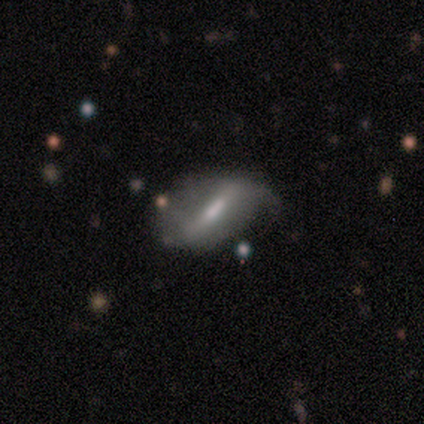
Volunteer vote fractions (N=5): Smooth or featured? featured or disk (60%)
Edge-on disk? no (67%)
Bar? weak (50%, tied with no)
Spiral arms? yes (100%)
Spiral winding? loose (100%)
Spiral arm count? 2 (50%, tied with can't tell)
Bulge size? moderate (50%, tied with small)
Merging? none (40%, tied with minor disturbance)